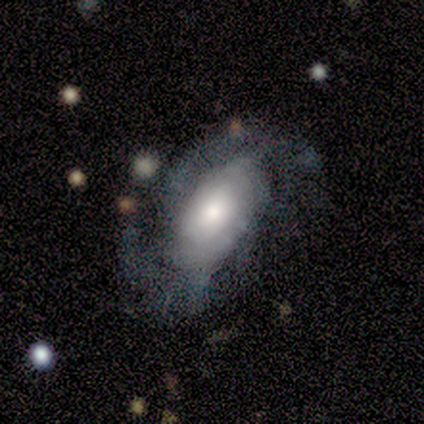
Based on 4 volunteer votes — smooth_or_featured: featured or disk (p=1.00)
disk_edge_on: no (p=1.00)
bar: no (p=0.75) [alt: weak p=0.25]
has_spiral_arms: yes (p=0.75) [alt: no p=0.25]
spiral_winding: medium (p=0.67) [alt: tight p=0.33]
spiral_arm_count: 2 (p=0.33) [tied with: 3 p=0.33, can't tell p=0.33]
bulge_size: large (p=0.50) [tied with: small p=0.50]
merging: major disturbance (p=0.50) [alt: none p=0.25]